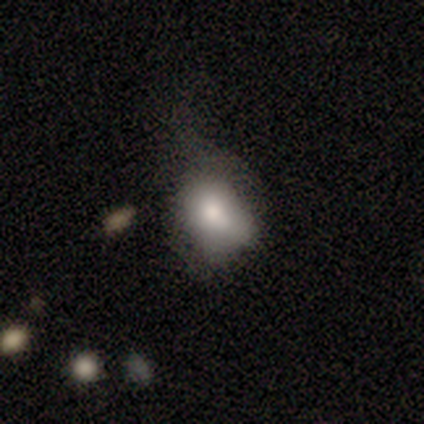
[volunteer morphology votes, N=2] A star or artifact, not a galaxy (100%).